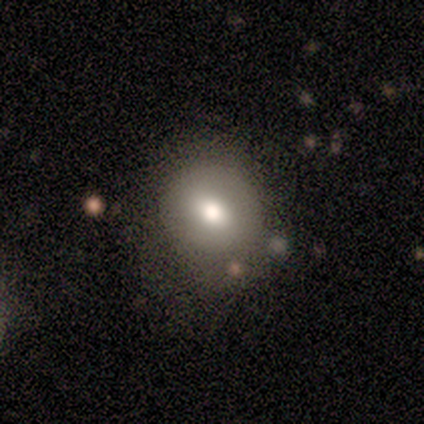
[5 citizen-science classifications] This appears to be a smooth galaxy with no disk features (80%) that is round (50%, tied with in between). Merging: none (80%).